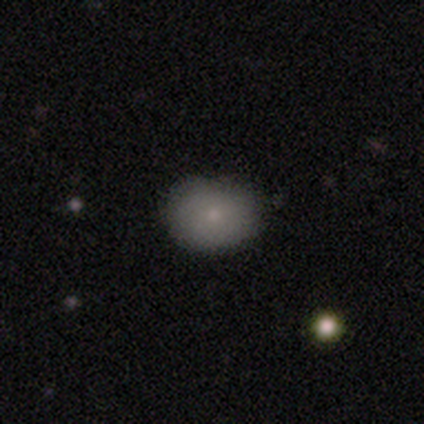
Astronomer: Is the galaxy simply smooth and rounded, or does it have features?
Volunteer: smooth — 80%.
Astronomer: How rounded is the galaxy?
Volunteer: round — 50%, tied with in between at 50%.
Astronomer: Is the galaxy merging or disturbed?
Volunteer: none — 100%.